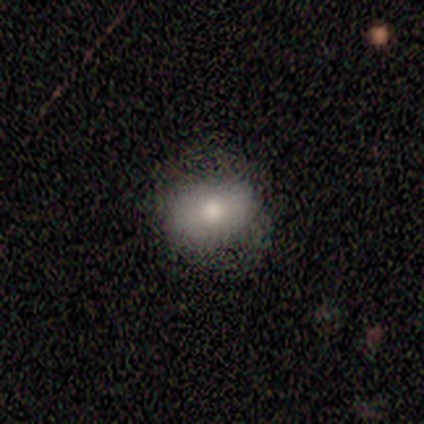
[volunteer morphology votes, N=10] smooth-or-featured: smooth: 70% | featured or disk: 20% | star or artifact: 10%
  how-rounded: in between: 57% | round: 43% | cigar-shaped: 0%
  merging: none: 56% | minor disturbance: 44% | major disturbance: 0% | merger: 0%